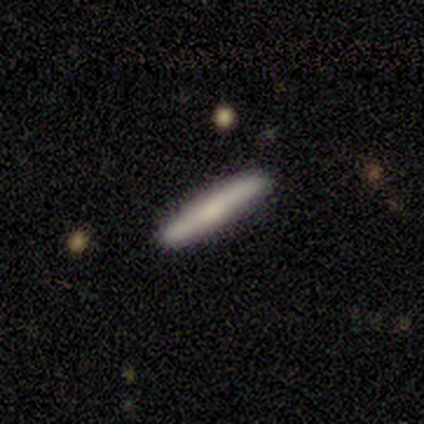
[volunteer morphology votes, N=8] A smooth galaxy with no disk features (100%) that is cigar-shaped (100%).

Vote fractions:
- Smooth or featured? smooth: 100% / featured or disk: 0% / star or artifact: 0%
- How rounded? cigar-shaped: 100% / round: 0% / in between: 0%
- Merging? none: 75% / major disturbance: 12% / merger: 12% / minor disturbance: 0%